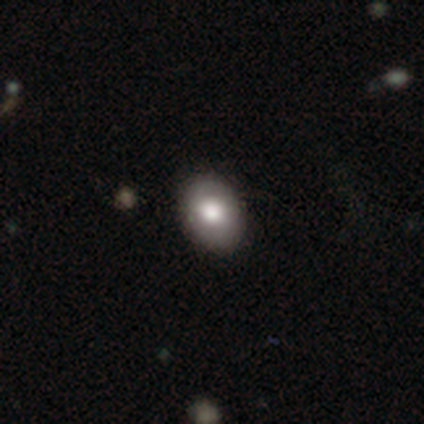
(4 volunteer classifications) Smooth or featured? smooth (100%)
How rounded? in between (100%)
Merging? none (75%)